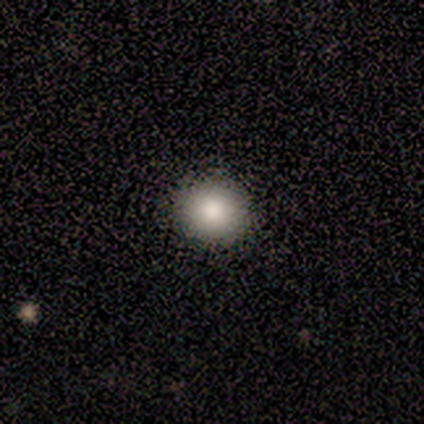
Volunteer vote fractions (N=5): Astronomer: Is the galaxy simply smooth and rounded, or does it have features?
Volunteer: smooth — 80%.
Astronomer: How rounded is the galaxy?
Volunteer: round — 100%.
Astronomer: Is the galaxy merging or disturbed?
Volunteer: none — 100%.